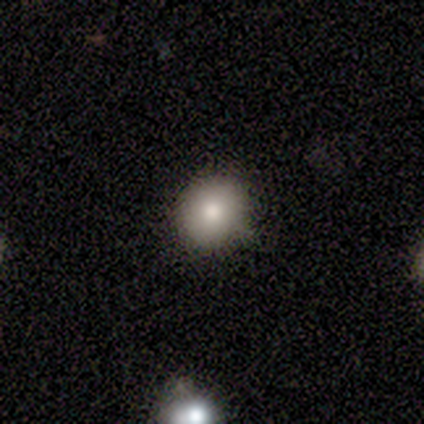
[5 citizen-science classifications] Volunteers were most divided on "how rounded": round: 80%, in between: 20%, cigar-shaped: 0%. More confident: smooth or featured — smooth (100%); merging — none (100%).